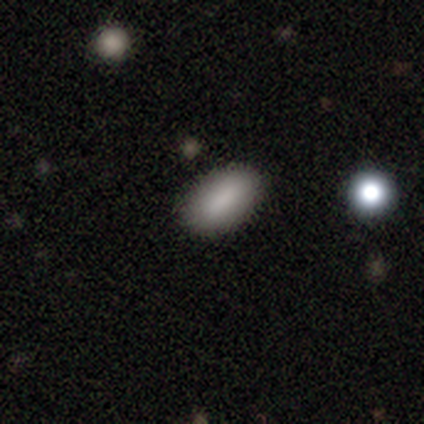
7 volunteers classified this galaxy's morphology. Smooth or featured? 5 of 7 (71%) said smooth. How rounded? 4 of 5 (80%) said in between. Merging? 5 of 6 (83%) said none.